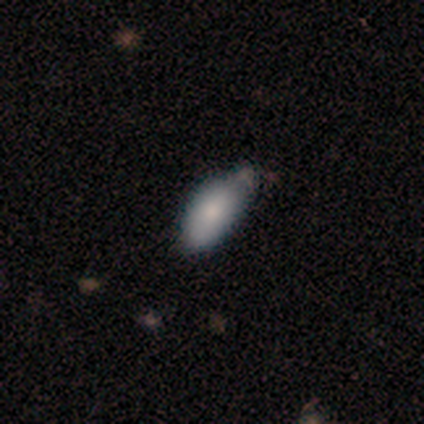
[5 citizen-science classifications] smooth 100%, featured or disk 0%, star or artifact 0%. Down the decision tree: how rounded — in between (100%); merging — none (60%).